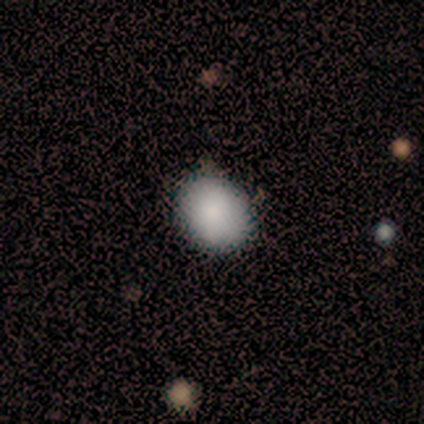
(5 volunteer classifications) This is clearly a smooth galaxy (100%). How rounded: clearly in between (80%). Merging: clearly none (80%).